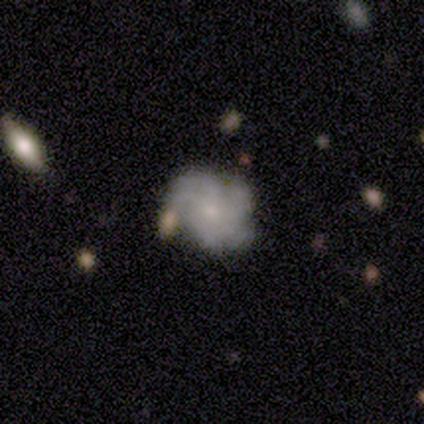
featured or disk 67%, smooth 26%, star or artifact 8%. Down the decision tree: edge-on disk — no (96%); bar — no (84%); spiral arms — yes (88%); spiral arm count — more than 4 (45%); spiral winding — tight (41%); bulge size — small (72%); merging — none (58%).